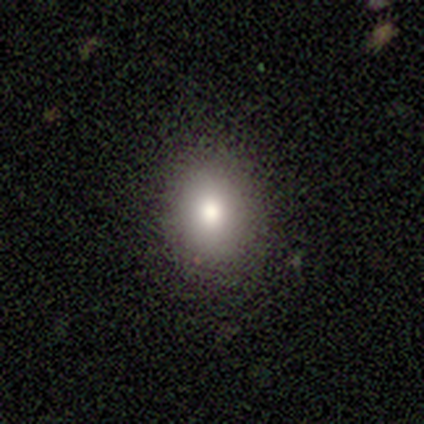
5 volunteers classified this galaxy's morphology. smooth_or_featured: smooth (p=1.00)
how_rounded: in between (p=0.60) [alt: round p=0.40]
merging: none (p=1.00)